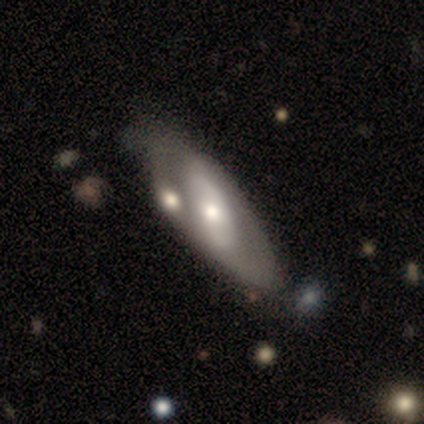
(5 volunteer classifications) Volunteers were most divided on "smooth or featured": smooth: 60%, featured or disk: 40%, star or artifact: 0%. More confident: how rounded — in between (100%); merging — none (80%).